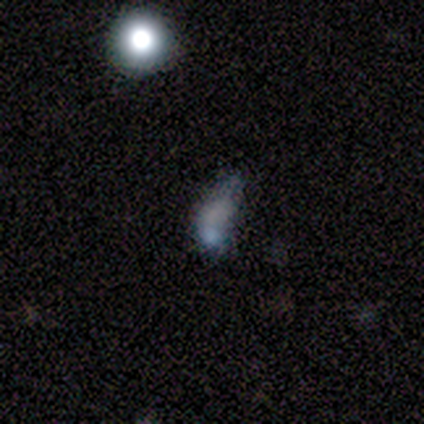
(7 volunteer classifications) Smooth or featured: smooth — 43% (tied with star or artifact — 43%)
How rounded: in between — 67% (round — 33%)
Merging: merger — 50% (minor disturbance — 25%)